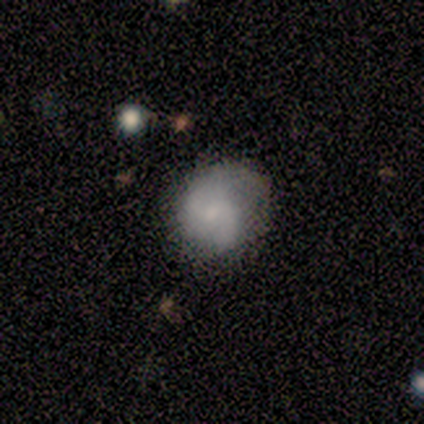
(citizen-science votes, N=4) Volunteers were most divided on "spiral winding" (2-way tie): tight: 50%, medium: 50%, loose: 0%. More confident: edge-on disk — no (100%); bar — no (100%); spiral arm count — 2 (100%); merging — none (100%); smooth or featured — featured or disk (75%); spiral arms — yes (67%); bulge size — small (67%).